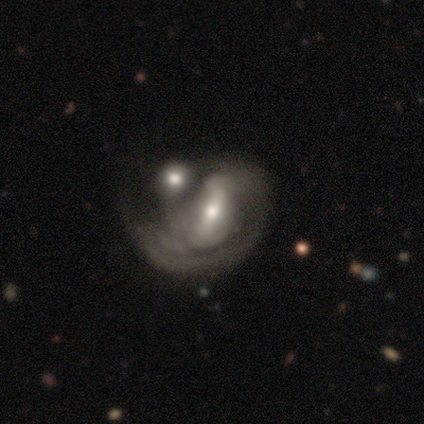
Q: Smooth or featured?
A: featured or disk (76%); runner-up: smooth (17%)
Q: Edge-on disk?
A: no (98%); runner-up: yes (2%)
Q: Bar?
A: strong (38%); tied with: weak (38%)
Q: Spiral arms?
A: yes (68%); runner-up: no (32%)
Q: Spiral winding?
A: tight (44%); runner-up: medium (33%)
Q: Spiral arm count?
A: can't tell (48%); runner-up: 2 (33%)
Q: Bulge size?
A: moderate (55%); runner-up: small (40%)
Q: Merging?
A: merger (58%); runner-up: major disturbance (30%)